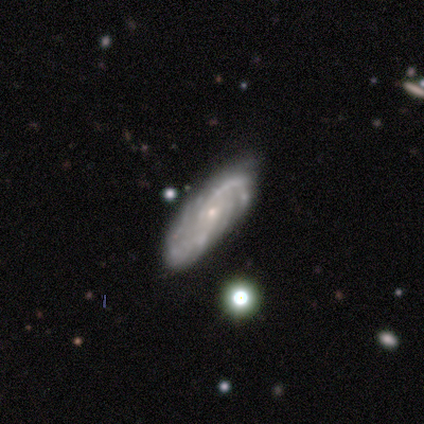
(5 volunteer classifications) smooth-or-featured: featured or disk: 100% | smooth: 0% | star or artifact: 0%
  disk-edge-on: no: 100% | yes: 0%
    bar: no: 60% | strong: 20% | weak: 20%
    has-spiral-arms: yes: 100% | no: 0%
      spiral-winding: medium: 60% | tight: 40% | loose: 0%
      spiral-arm-count: 2: 40% (tied) | can't tell: 40% (tied) | 3: 20% | 1: 0% | 4: 0% | more than 4: 0%
    bulge-size: small: 80% | moderate: 20% | dominant: 0% | large: 0% | none: 0%
  merging: none: 40% (tied) | minor disturbance: 40% (tied) | major disturbance: 20% | merger: 0%